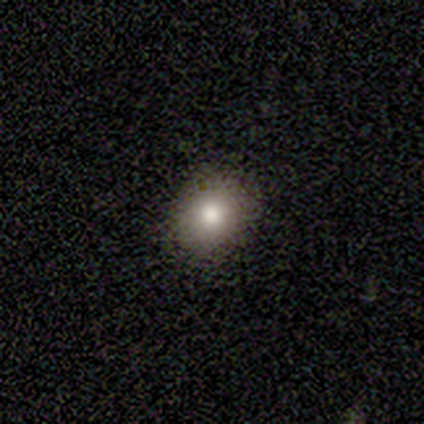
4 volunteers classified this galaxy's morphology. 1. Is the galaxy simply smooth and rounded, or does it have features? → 50% smooth (tied), 50% star or artifact (tied), 0% featured or disk.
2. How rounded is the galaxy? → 100% round, 0% in between, 0% cigar-shaped.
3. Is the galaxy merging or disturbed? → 100% none, 0% minor disturbance, 0% major disturbance, 0% merger.